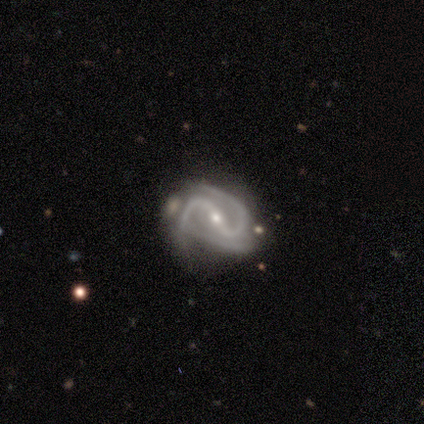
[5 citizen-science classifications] Smooth or featured: featured or disk — 80% (star or artifact — 20%)
Edge-on disk: no — 100%
Bar: strong — 100%
Spiral arms: yes — 100%
Spiral winding: medium — 75% (loose — 25%)
Spiral arm count: 2 — 100%
Bulge size: moderate — 75% (small — 25%)
Merging: minor disturbance — 50% (none — 25%)